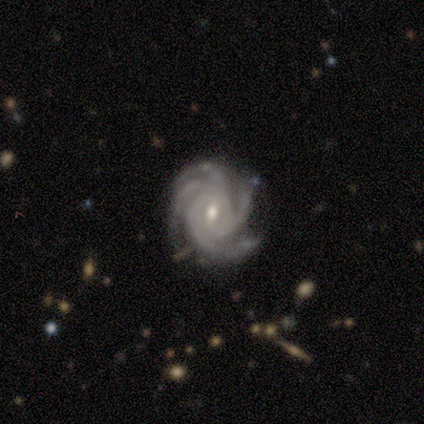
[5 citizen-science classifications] This is clearly a featured or disk galaxy (100%). It is clearly not viewed edge-on (80%). Bar: likely weak (75%). Spiral arm pattern: clearly yes (100%). Spiral arm count: likely 4 (75%). Spiral winding: likely tight (75%). Central bulge: likely moderate (75%). Merging: clearly none (80%).